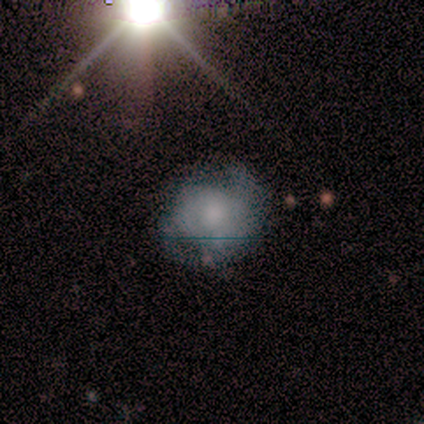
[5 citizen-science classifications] Smooth or featured: star or artifact — 60% (smooth — 40%)